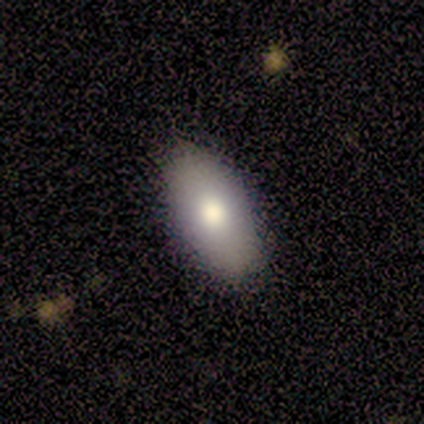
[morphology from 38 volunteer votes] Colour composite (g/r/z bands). It shows a smooth galaxy with no disk features (71%) that is in between round and cigar-shaped (89%). Merging: none (88%).